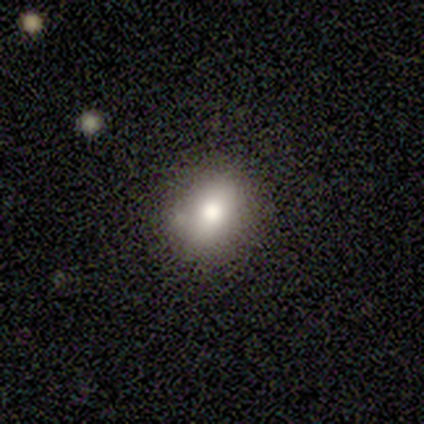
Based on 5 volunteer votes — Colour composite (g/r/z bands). It shows a smooth galaxy with no disk features (40%, tied with featured or disk) that is round (50%, tied with in between). Merging: none (75%).